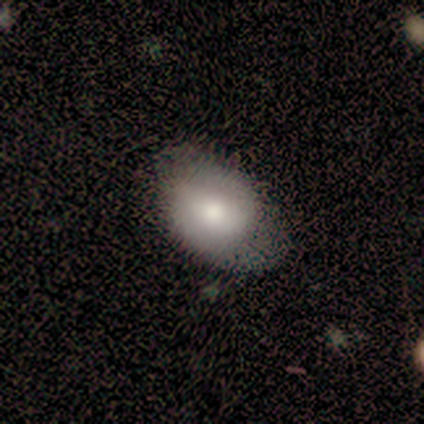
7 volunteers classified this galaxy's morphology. A smooth galaxy with no disk features (43%, tied with featured or disk) that is in between round and cigar-shaped (67%). Merging: none (50%, tied with minor disturbance).